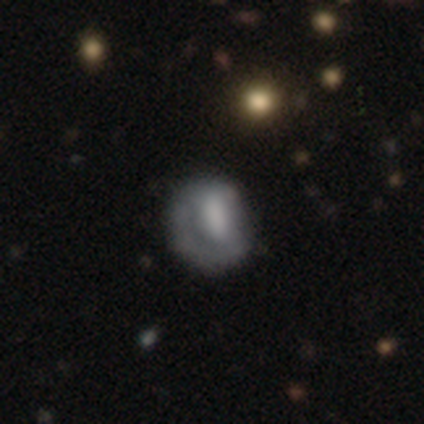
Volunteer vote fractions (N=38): Smooth or featured? smooth (50%)
How rounded? round (58%)
Merging? none (59%)